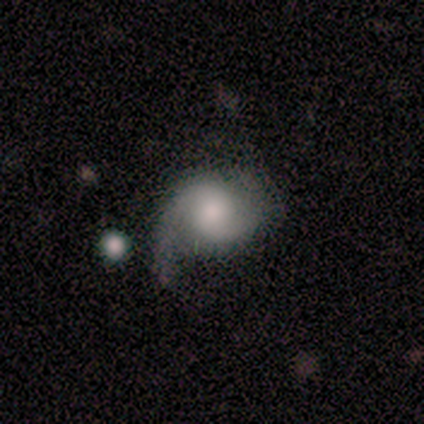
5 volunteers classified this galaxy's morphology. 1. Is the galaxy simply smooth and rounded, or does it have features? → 80% featured or disk, 20% smooth, 0% star or artifact.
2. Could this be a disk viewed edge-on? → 100% no, 0% yes.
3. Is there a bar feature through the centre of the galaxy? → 50% no, 25% strong, 25% weak.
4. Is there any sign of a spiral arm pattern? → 100% yes, 0% no.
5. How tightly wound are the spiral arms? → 100% medium, 0% tight, 0% loose.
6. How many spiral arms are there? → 50% 1 (tied), 50% 2 (tied), 0% 3, 0% 4, 0% more than 4, 0% can't tell.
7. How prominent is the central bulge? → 50% small, 25% moderate, 25% none, 0% dominant, 0% large.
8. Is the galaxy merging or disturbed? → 60% none, 20% minor disturbance, 20% major disturbance, 0% merger.